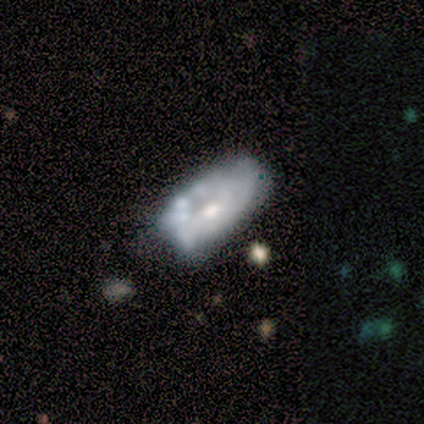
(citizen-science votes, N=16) Morphology: type=featured or disk (75%); edge-on=no (100%); bar=no (92%); spiral arms=no (92%); bulge=moderate (50%); merging=none (44%).